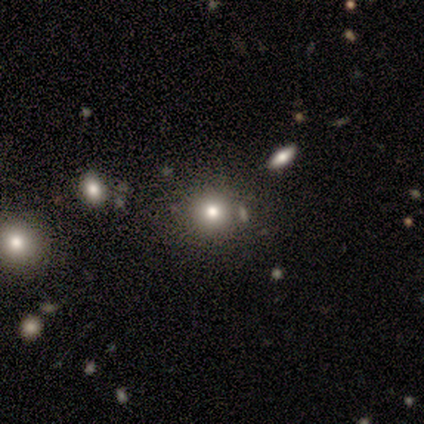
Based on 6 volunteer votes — This is possibly a smooth galaxy (50%, tied with star or artifact). How rounded: clearly round (100%). Merging: likely none (67%).